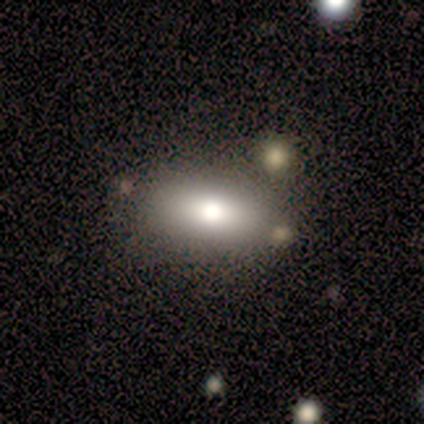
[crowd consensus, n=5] smooth_or_featured: smooth (p=0.80) [alt: featured or disk p=0.20]
how_rounded: in between (p=0.75) [alt: cigar-shaped p=0.25]
merging: none (p=1.00)